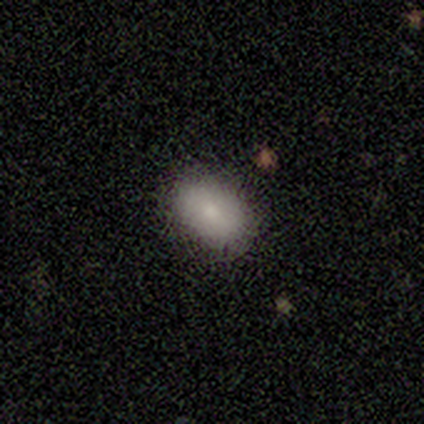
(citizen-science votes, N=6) A smooth galaxy with no disk features (100%) that is in between round and cigar-shaped (83%). Merging: none (100%).